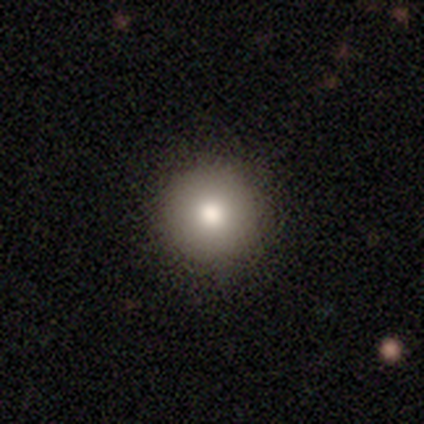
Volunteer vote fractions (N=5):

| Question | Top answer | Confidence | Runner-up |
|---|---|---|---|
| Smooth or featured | smooth | 60% | featured or disk (20%) |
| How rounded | round | 100% | — |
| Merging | none | 100% | — |